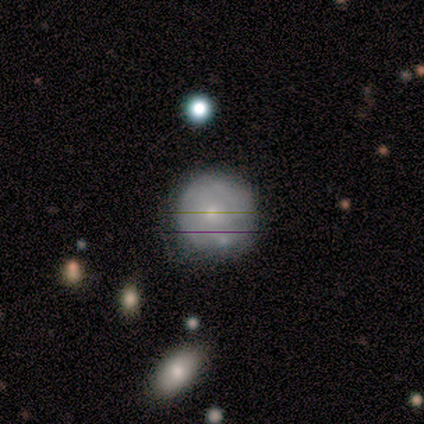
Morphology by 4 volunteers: This is likely a featured or disk galaxy (75%). It is clearly not viewed edge-on (100%). Bar: likely no (67%). Spiral arm pattern: clearly no (100%). Central bulge: likely small (67%). Merging: likely none (75%).